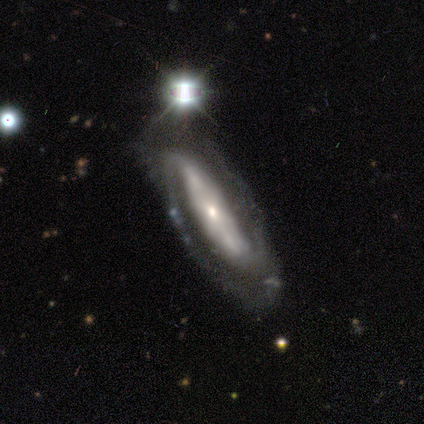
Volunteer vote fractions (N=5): Smooth or featured? featured or disk (100%)
Edge-on disk? no (100%)
Bar? strong (60%)
Spiral arms? yes (100%)
Spiral winding? tight (80%)
Spiral arm count? 2 (100%)
Bulge size? small (100%)
Merging? none (100%)